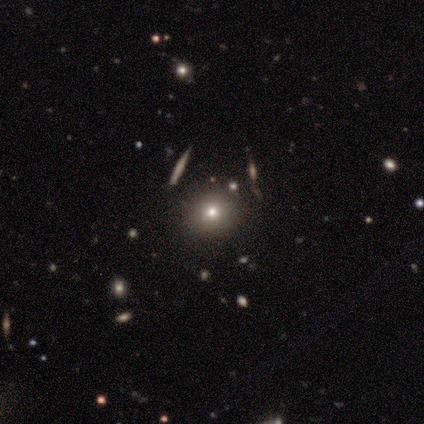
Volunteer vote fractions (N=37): Volunteers were most divided on "smooth or featured": smooth: 62%, star or artifact: 24%, featured or disk: 14%. More confident: how rounded — round (91%); merging — none (82%).